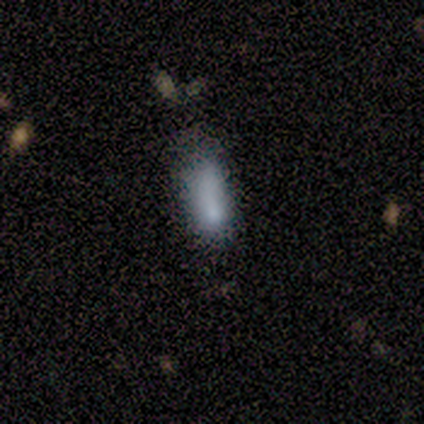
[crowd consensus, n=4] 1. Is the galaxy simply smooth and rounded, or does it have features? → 50% smooth, 25% featured or disk, 25% star or artifact.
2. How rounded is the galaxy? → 100% in between, 0% round, 0% cigar-shaped.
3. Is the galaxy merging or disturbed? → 33% none (tied), 33% minor disturbance (tied), 33% major disturbance (tied), 0% merger.